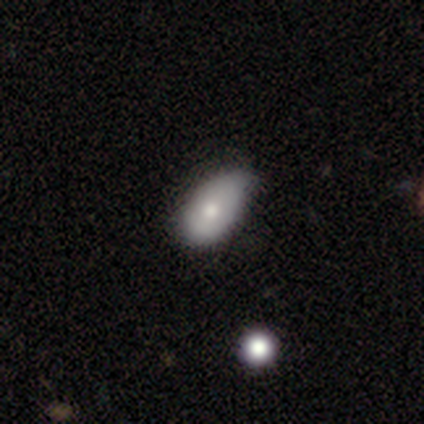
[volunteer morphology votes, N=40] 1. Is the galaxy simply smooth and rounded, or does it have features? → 75% smooth, 15% featured or disk, 10% star or artifact.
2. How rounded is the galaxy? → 100% in between, 0% round, 0% cigar-shaped.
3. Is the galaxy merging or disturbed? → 50% minor disturbance, 36% none, 14% major disturbance, 0% merger.